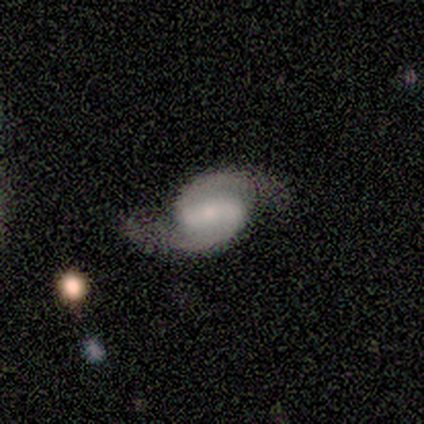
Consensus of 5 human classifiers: Smooth or featured? 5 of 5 (100%) said featured or disk. Edge-on disk? 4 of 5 (80%) said no. Bar? 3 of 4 (75%) said strong. Spiral arms? 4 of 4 (100%) said yes. Spiral winding? 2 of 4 (50%) said medium. Spiral arm count? 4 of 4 (100%) said 2. Bulge size? 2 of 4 (50%, tied with small) said moderate. Merging? 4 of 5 (80%) said none.